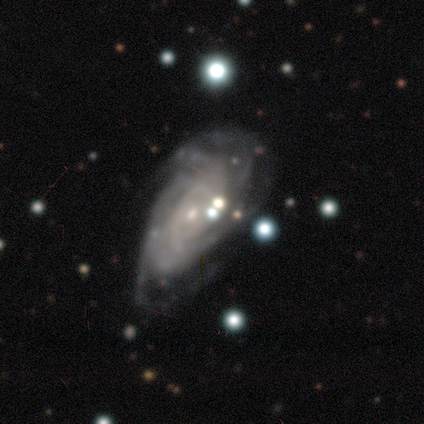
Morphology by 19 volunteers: Overall: featured or disk (89%). Edge-on disk: no (100%). Bar: no (71%). Spiral arms: yes (100%). Spiral arm count: can't tell (41%; 4 24%). Spiral winding: tight (59%; medium 24%). Bulge size: small (65%). Merging: none (50%; major disturbance 39%).